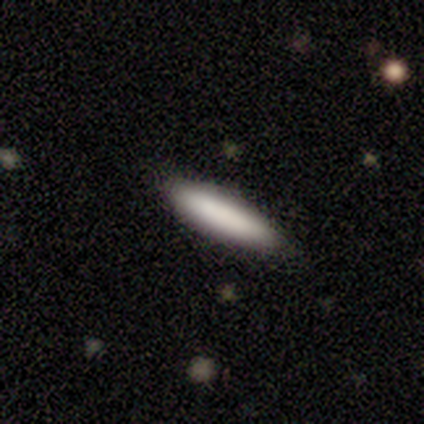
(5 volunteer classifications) Smooth or featured? smooth (80%)
How rounded? cigar-shaped (75%)
Merging? none (100%)